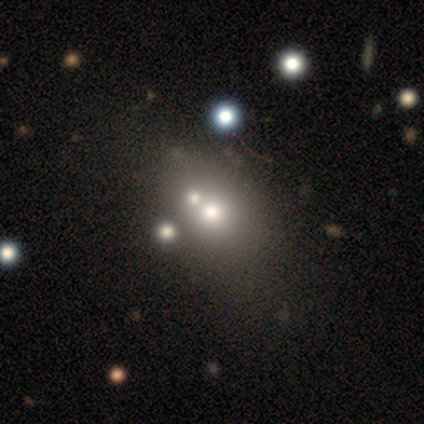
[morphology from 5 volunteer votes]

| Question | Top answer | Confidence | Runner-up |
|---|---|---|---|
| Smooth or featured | smooth | 60% | star or artifact (40%) |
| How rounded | in between | 100% | — |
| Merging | none | 100% | — |